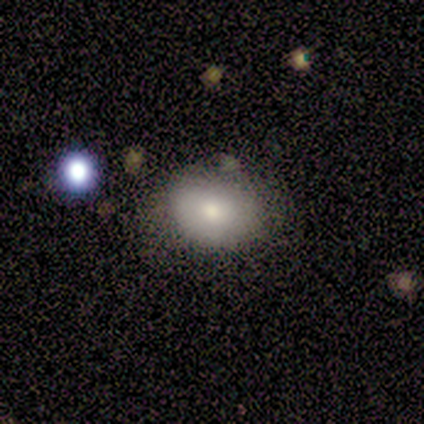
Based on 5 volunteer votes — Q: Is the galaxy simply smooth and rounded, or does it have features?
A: smooth — 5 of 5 (100%).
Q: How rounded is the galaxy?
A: round — 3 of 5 (60%).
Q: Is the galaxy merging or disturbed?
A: none — 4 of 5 (80%).